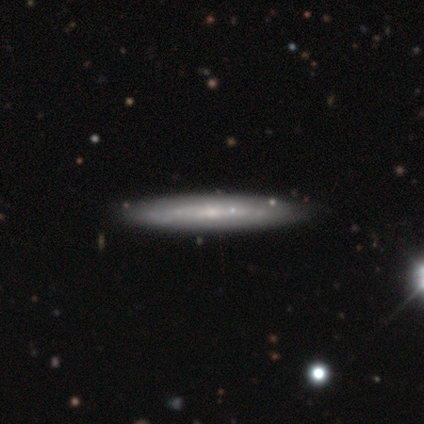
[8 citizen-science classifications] Smooth or featured? featured or disk (62%)
Edge-on disk? yes (80%)
Edge-on bulge? none (100%)
Merging? none (100%)